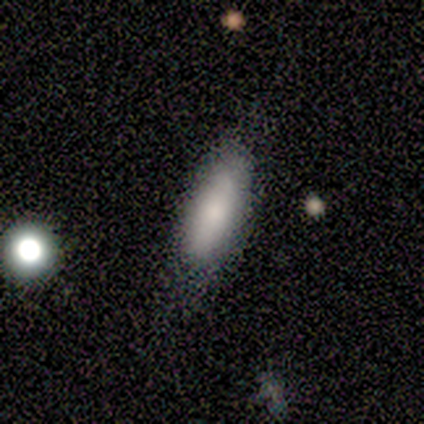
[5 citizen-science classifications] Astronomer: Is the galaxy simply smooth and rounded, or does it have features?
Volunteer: smooth — 80%.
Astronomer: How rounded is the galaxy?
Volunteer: in between — 50%, tied with cigar-shaped at 50%.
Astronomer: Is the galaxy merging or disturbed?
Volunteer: none — 80%.